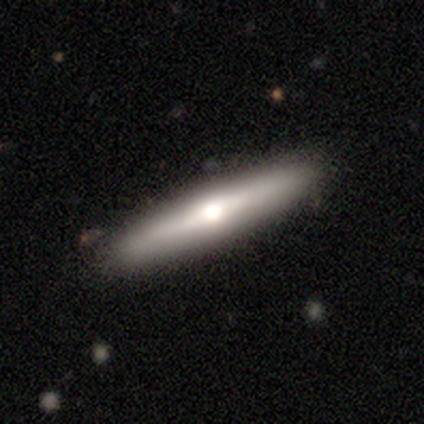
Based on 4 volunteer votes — Q: Smooth or featured?
A: smooth (50%); tied with: featured or disk (50%)
Q: How rounded?
A: cigar-shaped (100%)
Q: Merging?
A: none (100%)